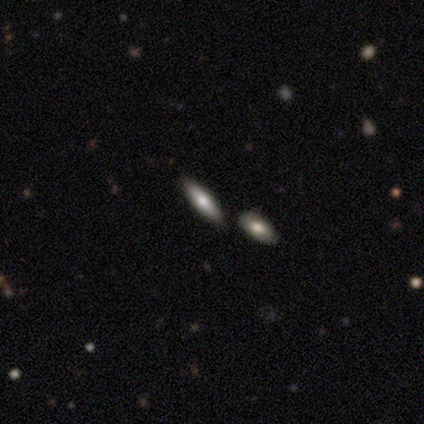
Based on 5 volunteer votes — smooth-or-featured: smooth: 100% | featured or disk: 0% | star or artifact: 0%
  how-rounded: cigar-shaped: 60% | in between: 40% | round: 0%
  merging: none: 80% | merger: 20% | minor disturbance: 0% | major disturbance: 0%